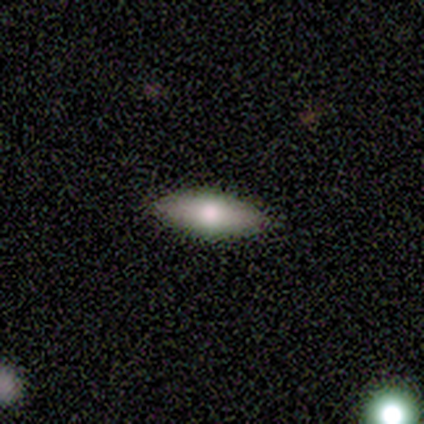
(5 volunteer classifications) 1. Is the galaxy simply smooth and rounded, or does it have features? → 80% smooth, 20% featured or disk, 0% star or artifact.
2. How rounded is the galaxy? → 100% in between, 0% round, 0% cigar-shaped.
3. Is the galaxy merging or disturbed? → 100% none, 0% minor disturbance, 0% major disturbance, 0% merger.